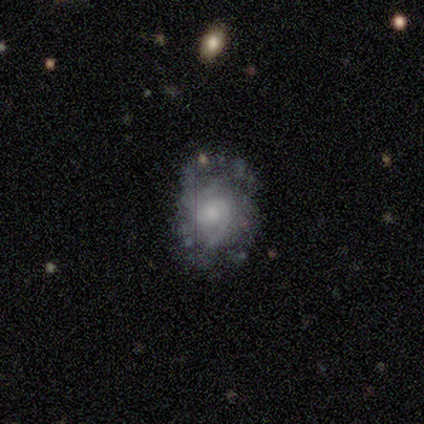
smooth_or_featured: featured or disk (p=0.80) [alt: star or artifact p=0.20]
disk_edge_on: no (p=1.00)
bar: weak (p=0.50) [tied with: no p=0.50]
has_spiral_arms: yes (p=1.00)
spiral_winding: medium (p=0.75) [alt: tight p=0.25]
spiral_arm_count: 2 (p=0.75) [alt: can't tell p=0.25]
bulge_size: small (p=0.75) [alt: moderate p=0.25]
merging: none (p=0.75) [alt: minor disturbance p=0.25]